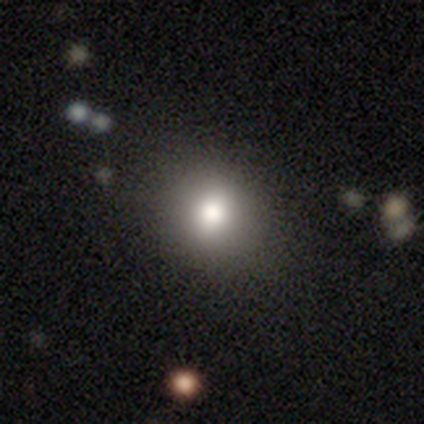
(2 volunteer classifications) smooth 50% (tied), featured or disk 50% (tied), star or artifact 0%. Down the decision tree: how rounded — round (100%); merging — none (100%).